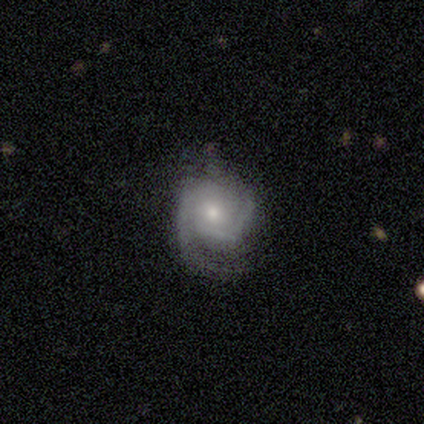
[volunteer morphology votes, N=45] featured or disk 78%, smooth 11%, star or artifact 11%. Down the decision tree: edge-on disk — no (97%); bar — no (82%); spiral arms — yes (94%); spiral arm count — 2 (81%); spiral winding — tight (50%); bulge size — moderate (53%); merging — none (50%).